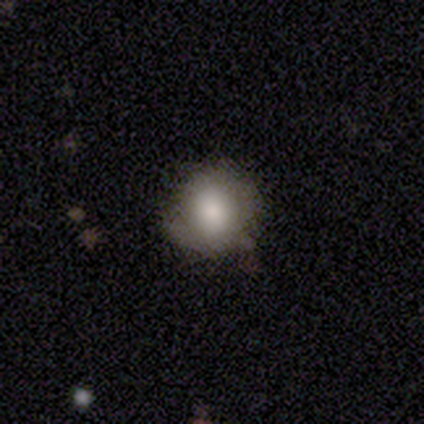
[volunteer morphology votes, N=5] type=smooth (100%); roundness=round (80%); merging=none (40%, tied with minor disturbance).